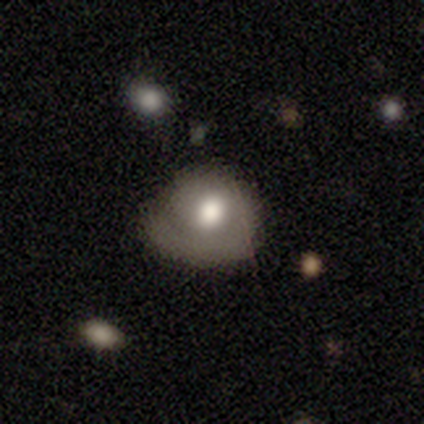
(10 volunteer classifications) Smooth or featured?
  - smooth: 70% *
  - featured or disk: 30%
  - star or artifact: 0%
How rounded?
  - in between: 86% *
  - round: 14%
  - cigar-shaped: 0%
Merging?
  - none: 40% *
  - minor disturbance: 30%
  - major disturbance: 30%
  - merger: 0%